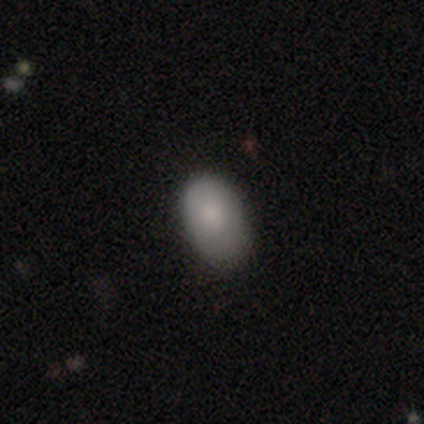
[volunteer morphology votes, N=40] A smooth galaxy with no disk features (82%) that is in between round and cigar-shaped (91%).

Vote fractions:
- Smooth or featured? smooth: 82% / featured or disk: 18% / star or artifact: 0%
- How rounded? in between: 91% / round: 9% / cigar-shaped: 0%
- Merging? none: 55% / minor disturbance: 40% / major disturbance: 2% / merger: 2%